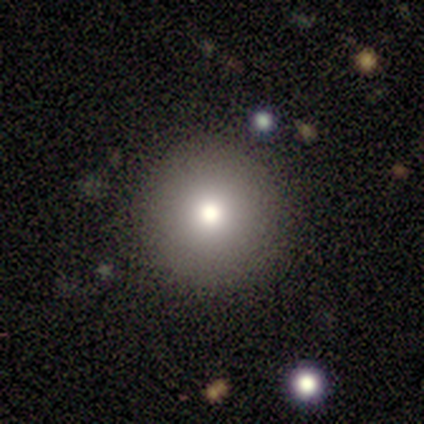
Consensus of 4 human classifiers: smooth 75%, featured or disk 25%, star or artifact 0%. Down the decision tree: how rounded — round (100%); merging — none (100%).